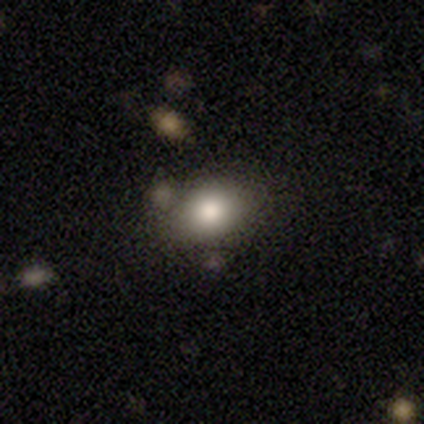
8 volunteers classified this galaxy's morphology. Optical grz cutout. It shows a smooth galaxy with no disk features (100%) that is in between round and cigar-shaped (75%). Merging: none (100%).